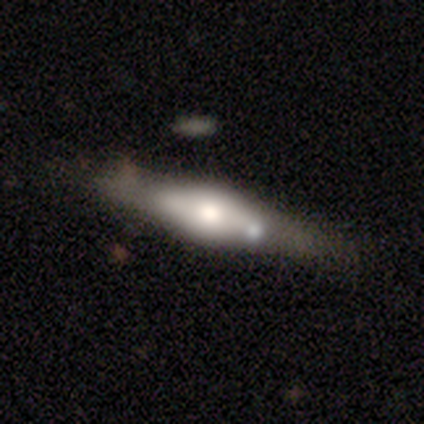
A featured or disk galaxy (61%) viewed edge-on (65%) with a rounded central bulge (81%). Merging: none (24%).